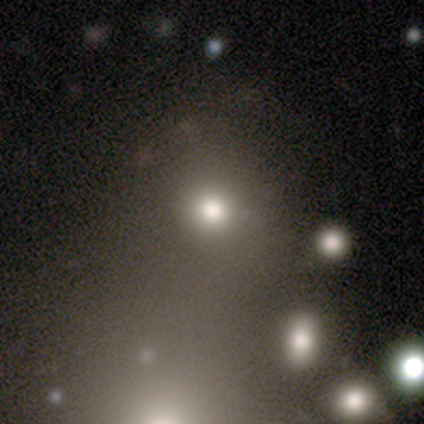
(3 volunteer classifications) Morphology: type=smooth (100%); roundness=round (100%); merging=none (100%).